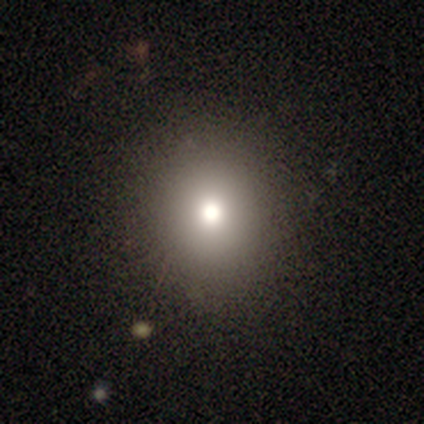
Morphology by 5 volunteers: Q: Smooth or featured?
A: smooth (60%); runner-up: star or artifact (40%)
Q: How rounded?
A: round (100%)
Q: Merging?
A: none (100%)